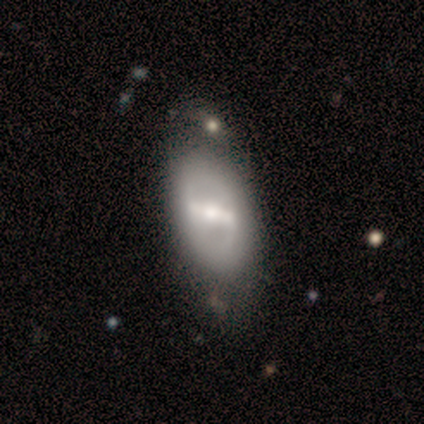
Volunteers were most divided on "spiral arms": no: 61%, yes: 39%. More confident: edge-on disk — no (93%); smooth or featured — featured or disk (77%); bar — strong (64%); bulge size — moderate (64%); merging — none (54%).